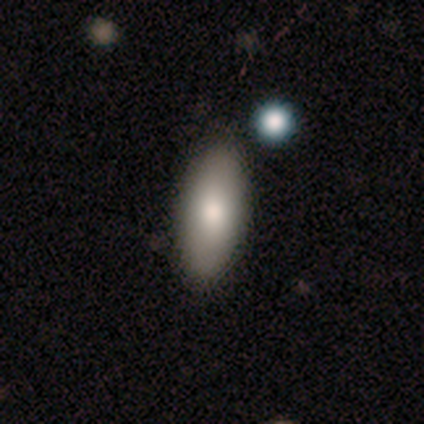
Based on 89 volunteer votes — Morphology: type=smooth (78%); roundness=in between (77%); merging=none (93%).